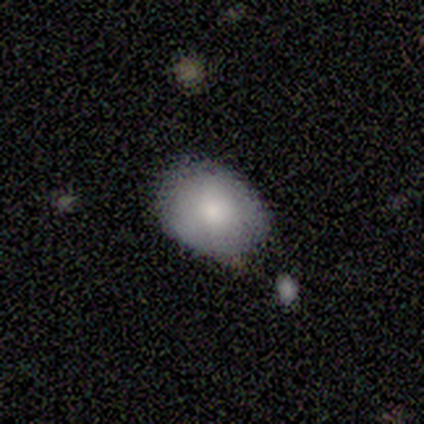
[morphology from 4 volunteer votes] A smooth galaxy with no disk features (100%) that is in between round and cigar-shaped (75%). Merging: none (75%).